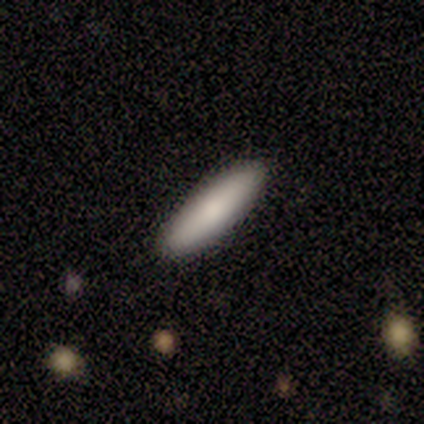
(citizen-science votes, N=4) This is possibly a smooth galaxy (50%). How rounded: possibly in between (50%, tied with cigar-shaped). Merging: clearly none (100%).